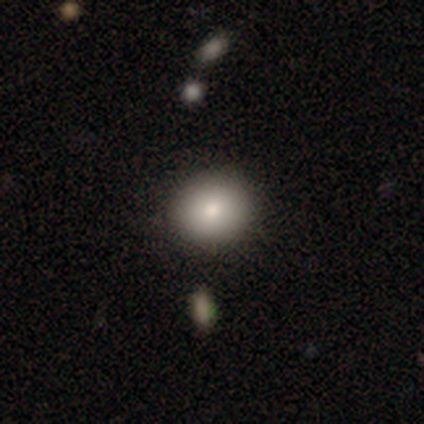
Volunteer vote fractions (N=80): Q: Smooth or featured?
A: smooth (89%); runner-up: featured or disk (8%)
Q: How rounded?
A: round (80%); runner-up: in between (20%)
Q: Merging?
A: none (43%); runner-up: minor disturbance (6%)